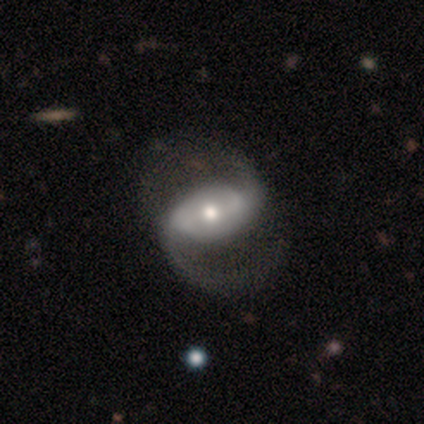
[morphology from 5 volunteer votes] Smooth or featured? 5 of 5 (100%) said featured or disk. Edge-on disk? 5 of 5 (100%) said no. Bar? 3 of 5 (60%) said weak. Spiral arms? 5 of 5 (100%) said yes. Spiral winding? 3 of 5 (60%) said loose. Spiral arm count? 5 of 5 (100%) said 2. Bulge size? 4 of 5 (80%) said moderate. Merging? 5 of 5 (100%) said none.